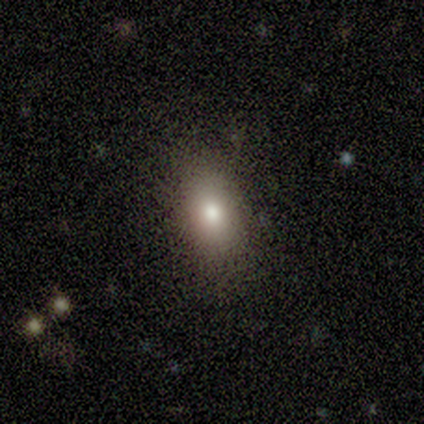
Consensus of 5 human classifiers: Smooth or featured: smooth — 80% (star or artifact — 20%)
How rounded: in between — 75% (round — 25%)
Merging: none — 100%